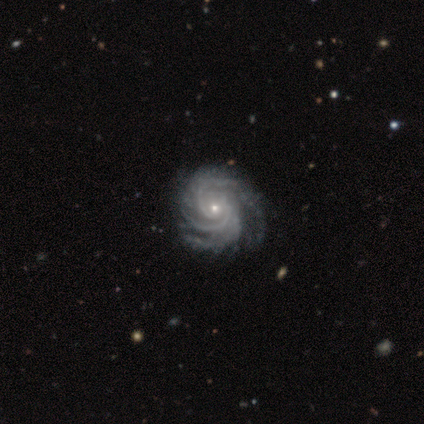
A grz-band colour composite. It shows a featured or disk galaxy (90%) with no bar (71%), 3 (47%) tight (76%) spiral arms (100%) and a small central bulge (82%). Merging: none (84%).